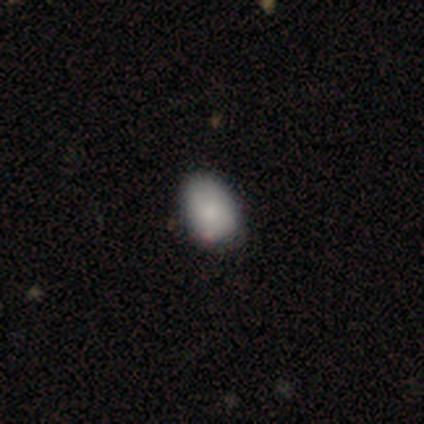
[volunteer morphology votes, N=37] smooth 81%, star or artifact 11%, featured or disk 8%. Down the decision tree: how rounded — in between (70%); merging — none (55%).